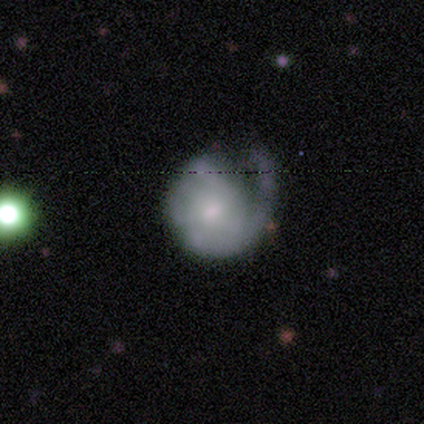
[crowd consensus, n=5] Overall: smooth (60%; featured or disk 40%). How rounded: round (100%). Merging: major disturbance (80%).